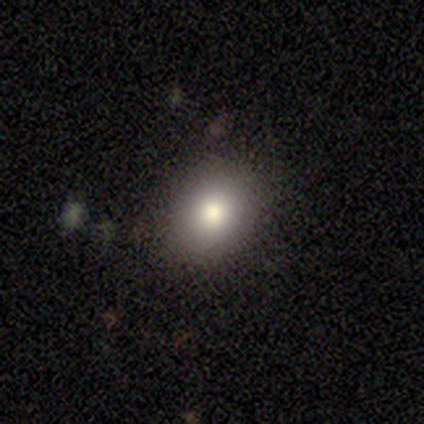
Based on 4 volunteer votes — smooth_or_featured: smooth (p=1.00)
how_rounded: in between (p=0.75) [alt: round p=0.25]
merging: none (p=1.00)